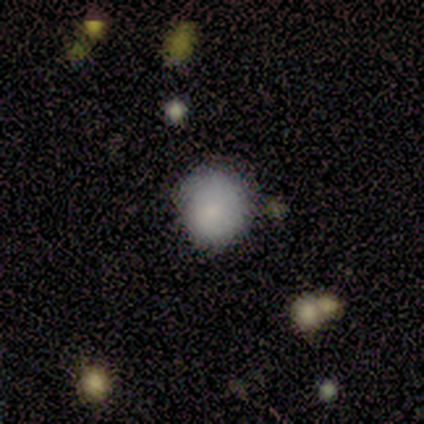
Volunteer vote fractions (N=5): Smooth or featured: smooth — 80% (featured or disk — 20%)
How rounded: round — 100%
Merging: none — 80% (minor disturbance — 20%)